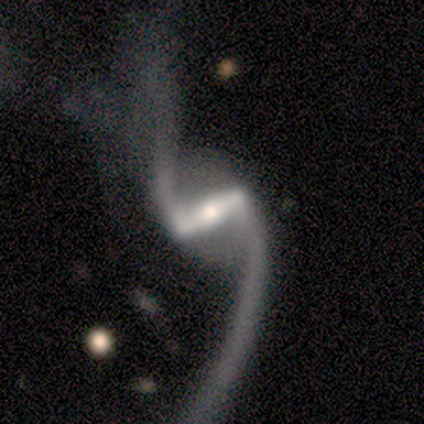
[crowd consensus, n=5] Smooth or featured: featured or disk — 100%
Edge-on disk: no — 100%
Bar: strong — 100%
Spiral arms: yes — 80% (no — 20%)
Spiral winding: loose — 100%
Spiral arm count: 2 — 100%
Bulge size: moderate — 80% (none — 20%)
Merging: minor disturbance — 40% (none — 20%)